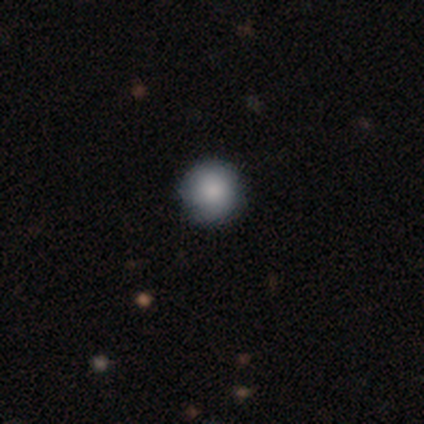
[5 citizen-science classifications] Overall: smooth (100%). How rounded: round (80%). Merging: none (80%).